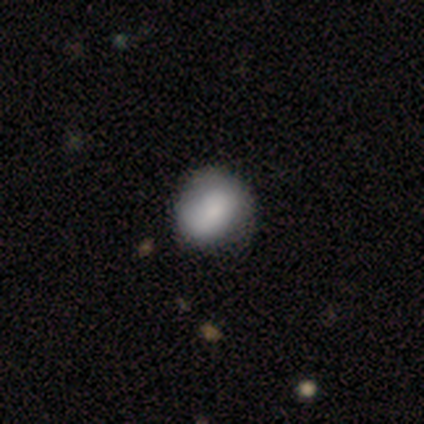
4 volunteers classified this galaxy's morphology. This appears to be a smooth galaxy with no disk features (100%) that is round (75%). Merging: none (75%).